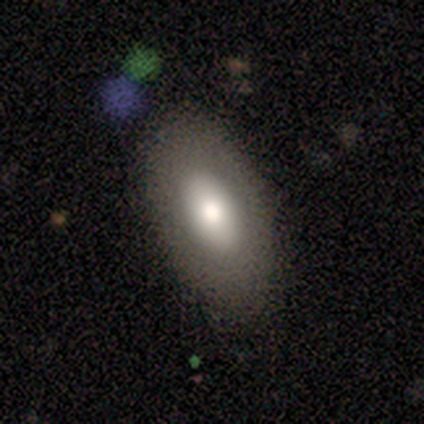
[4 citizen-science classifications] Q: Smooth or featured?
A: smooth (100%)
Q: How rounded?
A: in between (100%)
Q: Merging?
A: none (75%); runner-up: minor disturbance (25%)